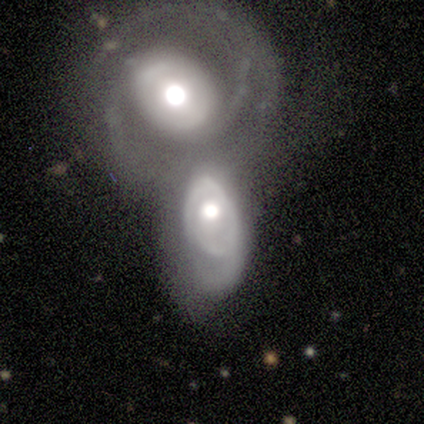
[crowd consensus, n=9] Volunteers were most divided on "spiral arm count" (2-way tie): 1: 40%, can't tell: 40%, 2: 20%, 3: 0%, 4: 0%, more than 4: 0%. More confident: edge-on disk — no (100%); bar — no (100%); bulge size — moderate (100%); smooth or featured — featured or disk (78%); spiral arms — yes (71%); merging — merger (67%); spiral winding — medium (60%).